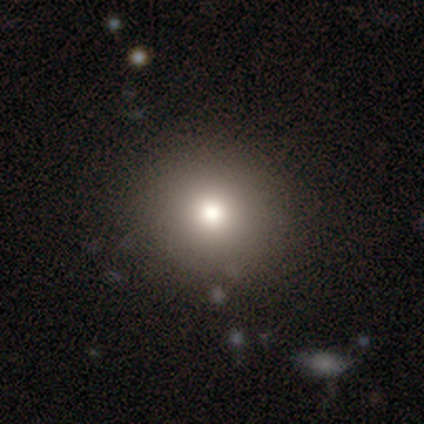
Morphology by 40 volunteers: This appears to be a smooth galaxy with no disk features (82%) that is round (91%). Merging: none (92%).